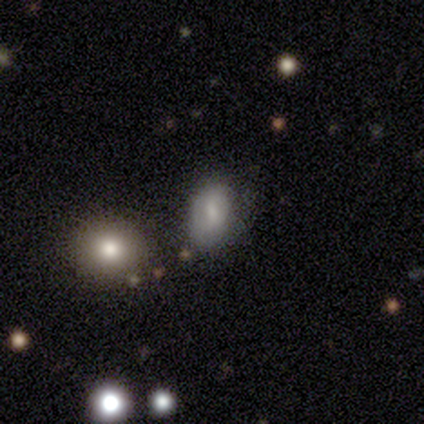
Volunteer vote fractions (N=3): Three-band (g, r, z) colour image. It shows a smooth galaxy with no disk features (100%) that is in between round and cigar-shaped (100%). Merging: none (67%).